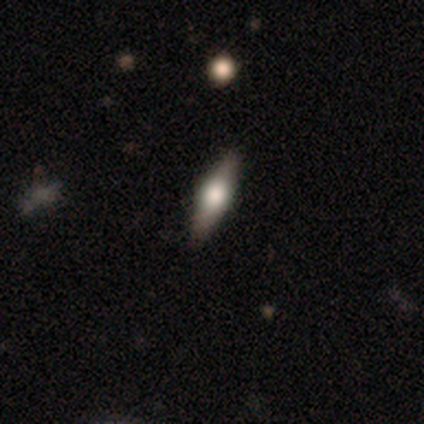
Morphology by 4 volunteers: A featured or disk galaxy (50%) viewed edge-on (100%) with a rounded central bulge (100%). Merging: none (100%).